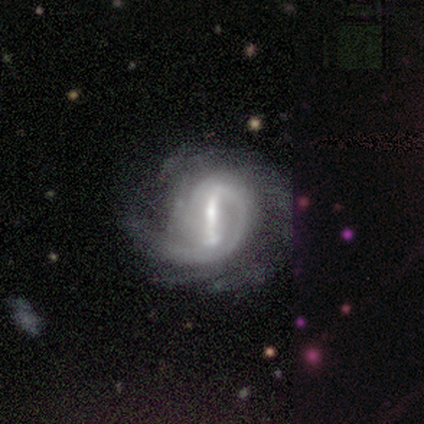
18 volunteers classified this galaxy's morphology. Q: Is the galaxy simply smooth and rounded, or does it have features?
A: featured or disk — 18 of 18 (100%).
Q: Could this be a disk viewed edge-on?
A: no — 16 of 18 (89%).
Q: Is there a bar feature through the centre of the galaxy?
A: strong — 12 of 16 (75%).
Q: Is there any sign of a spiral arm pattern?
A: yes — 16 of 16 (100%).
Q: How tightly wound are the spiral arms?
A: medium — 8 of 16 (50%).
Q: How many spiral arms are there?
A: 1 — 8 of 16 (50%).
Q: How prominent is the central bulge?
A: small — 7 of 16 (44%).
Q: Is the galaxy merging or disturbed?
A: none — 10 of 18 (56%).